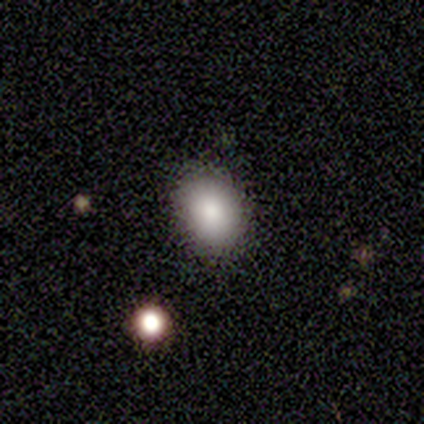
Overall: smooth (50%, tied with featured or disk). How rounded: in between (100%). Merging: none (100%).